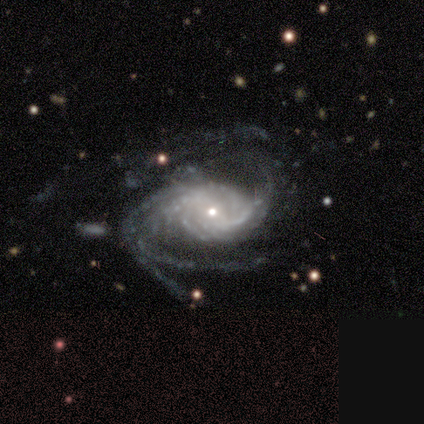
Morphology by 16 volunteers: featured or disk 88%, star or artifact 12%, smooth 0%. Down the decision tree: edge-on disk — no (100%); bar — weak (50%); spiral arms — yes (100%); spiral arm count — 3 (50%); spiral winding — medium (57%); bulge size — small (50%); merging — none (36%, tied with major disturbance).